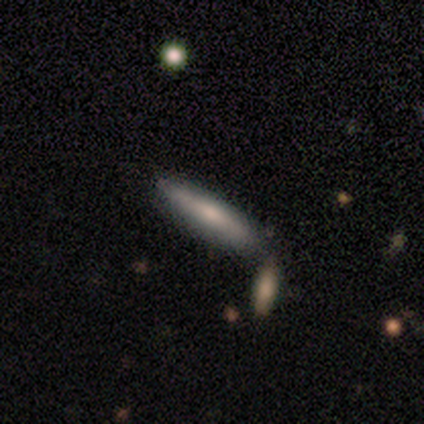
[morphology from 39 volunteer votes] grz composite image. It shows a featured or disk galaxy (49%) viewed edge-on (95%) with a rounded central bulge (72%). Merging: none (84%).